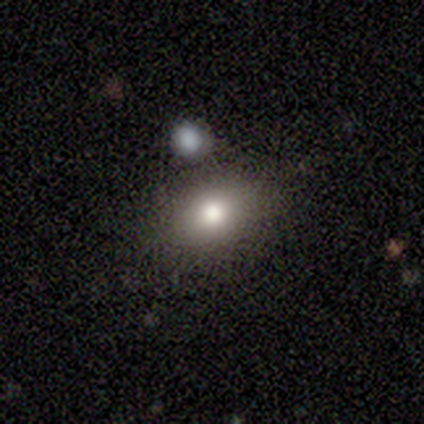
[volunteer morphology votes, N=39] Smooth or featured? smooth (90%)
How rounded? in between (80%)
Merging? none (87%)